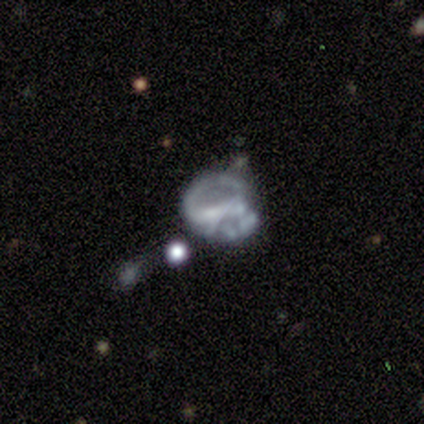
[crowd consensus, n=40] This appears to be a featured or disk galaxy (68%) with no bar (73%), no spiral arms (77%) and no central bulge (58%). Merging: major disturbance (35%).